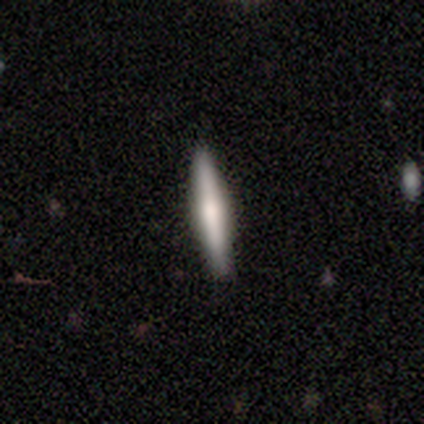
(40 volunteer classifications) smooth_or_featured: featured or disk (p=0.55) [alt: smooth p=0.45]
disk_edge_on: yes (p=1.00)
edge_on_bulge: rounded (p=0.64) [alt: boxy p=0.32]
merging: none (p=0.90) [alt: minor disturbance p=0.10]